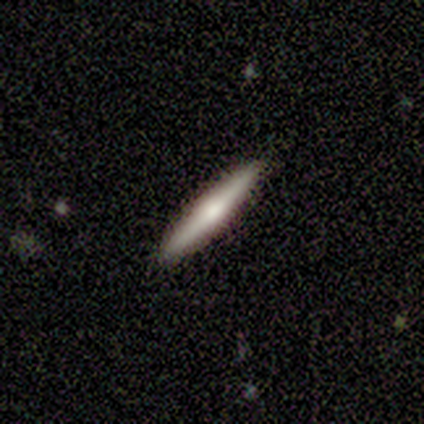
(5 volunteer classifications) smooth-or-featured: smooth: 60% | featured or disk: 40% | star or artifact: 0%
  how-rounded: cigar-shaped: 100% | round: 0% | in between: 0%
  merging: none: 100% | minor disturbance: 0% | major disturbance: 0% | merger: 0%